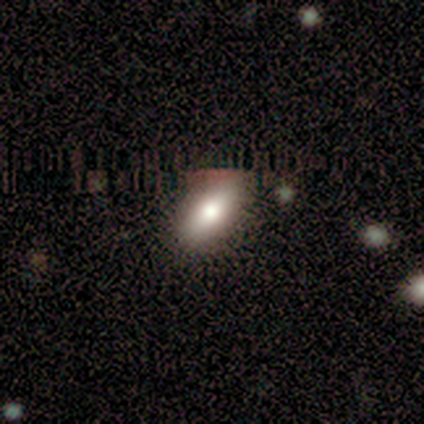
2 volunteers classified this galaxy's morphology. Overall: smooth (50%, tied with star or artifact). How rounded: in between (100%). Merging: none (100%).